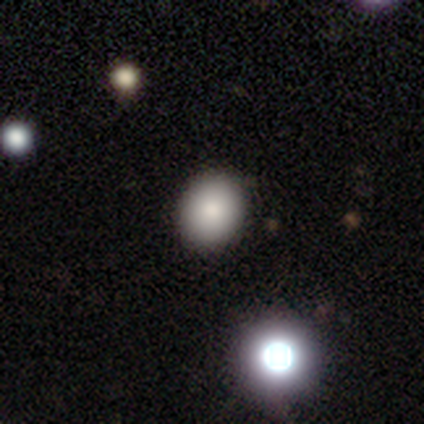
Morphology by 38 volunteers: This is clearly a smooth galaxy (92%). How rounded: possibly round (51%). Merging: likely none (78%).